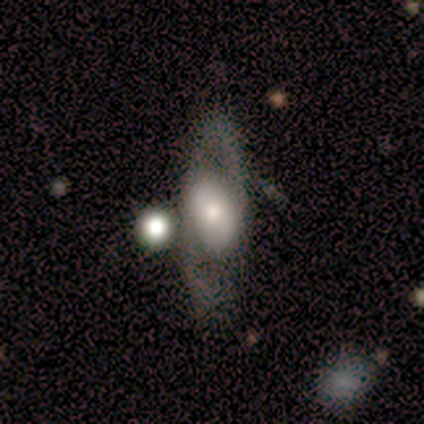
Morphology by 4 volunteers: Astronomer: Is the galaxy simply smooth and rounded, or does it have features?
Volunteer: smooth — 75%.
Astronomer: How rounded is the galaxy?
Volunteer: in between — 100%.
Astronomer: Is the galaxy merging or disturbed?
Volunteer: none — 67%.